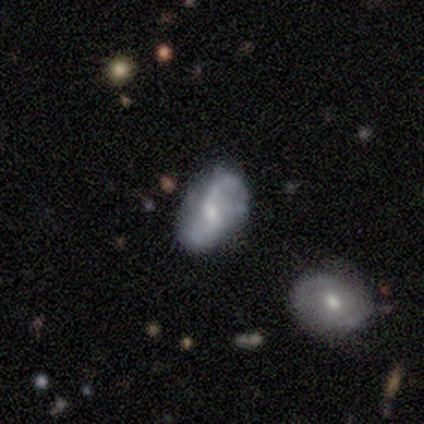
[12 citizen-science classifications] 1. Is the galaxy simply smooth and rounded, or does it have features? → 75% featured or disk, 17% smooth, 8% star or artifact.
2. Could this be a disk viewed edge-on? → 89% no, 11% yes.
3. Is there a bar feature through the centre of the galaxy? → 50% weak, 25% strong, 25% no.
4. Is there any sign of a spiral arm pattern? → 100% yes, 0% no.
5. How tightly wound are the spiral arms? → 50% medium, 25% tight, 25% loose.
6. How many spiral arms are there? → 75% 2, 12% 3, 12% can't tell, 0% 1, 0% 4, 0% more than 4.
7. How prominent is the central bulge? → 62% moderate, 38% small, 0% dominant, 0% large, 0% none.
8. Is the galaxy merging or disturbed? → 45% none (tied), 45% minor disturbance (tied), 9% major disturbance, 0% merger.